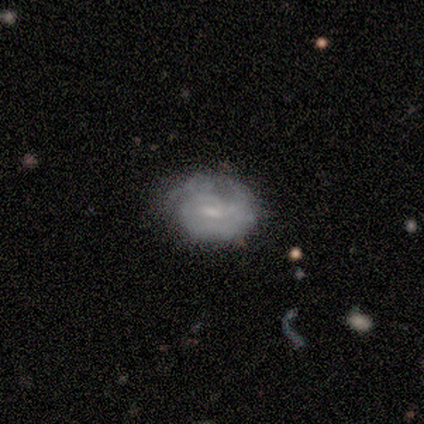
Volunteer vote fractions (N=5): Morphology: type=featured or disk (60%); edge-on=no (100%); bar=weak (100%); spiral arms=yes (100%); winding=tight (100%); arm count=2 (67%); bulge=small (67%); merging=none (80%).